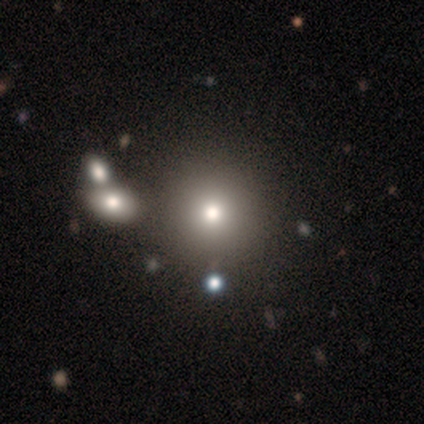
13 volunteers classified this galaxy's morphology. type=smooth (92%); roundness=round (100%); merging=none (77%).